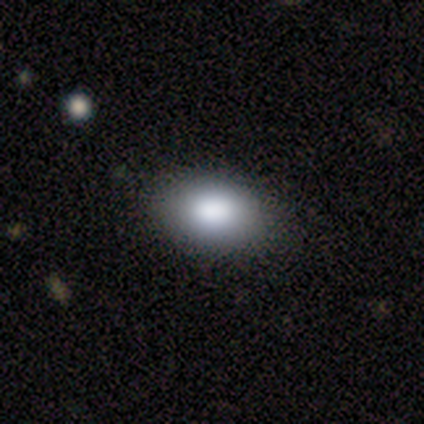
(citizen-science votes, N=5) smooth 80%, featured or disk 20%, star or artifact 0%. Down the decision tree: how rounded — in between (100%); merging — none (100%).